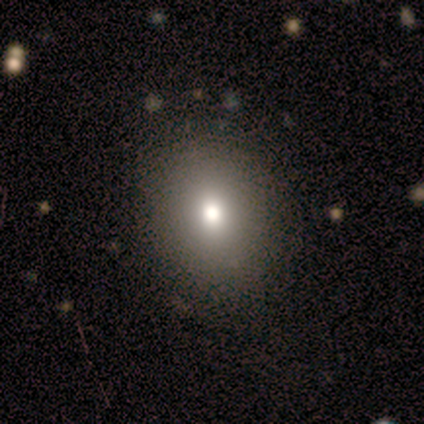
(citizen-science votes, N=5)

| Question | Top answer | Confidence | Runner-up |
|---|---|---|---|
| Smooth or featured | smooth | 60% | featured or disk (20%) |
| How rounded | in between | 67% | round (33%) |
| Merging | none | 75% | minor disturbance (25%) |